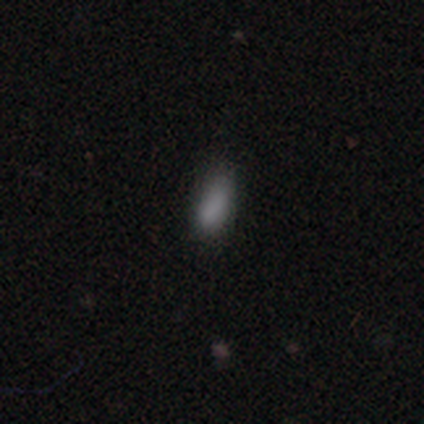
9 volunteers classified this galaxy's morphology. Smooth or featured? 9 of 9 (100%) said smooth. How rounded? 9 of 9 (100%) said in between. Merging? 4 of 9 (44%, tied with minor disturbance) said none.